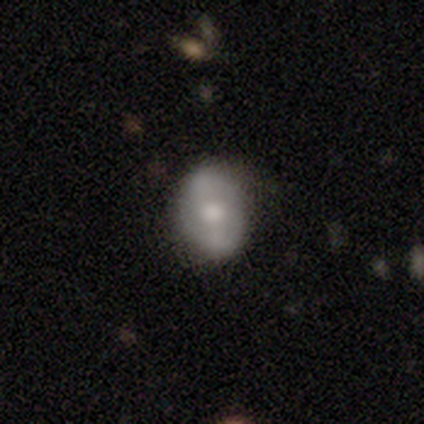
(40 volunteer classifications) Volunteers were most divided on "spiral arms": yes: 53%, no: 47%. Remaining: spiral arm count — 2 (100%); edge-on disk — no (85%); merging — none (73%); spiral winding — medium (67%); bar — no (59%); smooth or featured — featured or disk (50%); bulge size — small (41%).